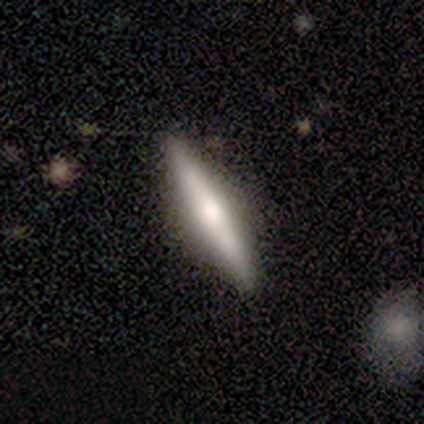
Q: Smooth or featured?
A: featured or disk (59%); runner-up: smooth (38%)
Q: Edge-on disk?
A: yes (98%); runner-up: no (2%)
Q: Edge-on bulge?
A: rounded (85%); runner-up: none (9%)
Q: Merging?
A: none (88%); runner-up: minor disturbance (8%)